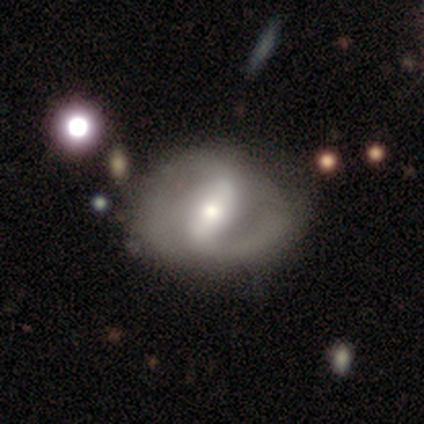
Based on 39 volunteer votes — Overall: featured or disk (82%). Edge-on disk: no (94%). Bar: strong (50%; weak 33%). Spiral arms: yes (83%). Spiral arm count: 2 (68%). Spiral winding: medium (52%; loose 36%). Bulge size: moderate (57%; large 27%). Merging: none (54%; minor disturbance 18%).